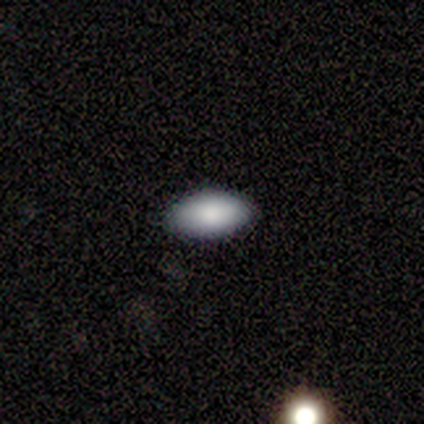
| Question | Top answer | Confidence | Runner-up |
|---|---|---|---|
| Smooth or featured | smooth | 80% | featured or disk (20%) |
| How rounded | in between | 75% | round (25%) |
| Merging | none | 100% | — |